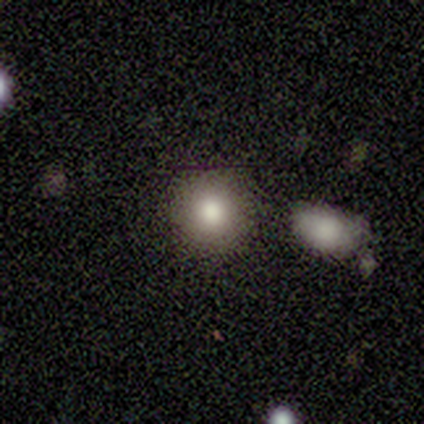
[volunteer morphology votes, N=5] Smooth or featured? smooth (60%)
How rounded? round (100%)
Merging? none (100%)